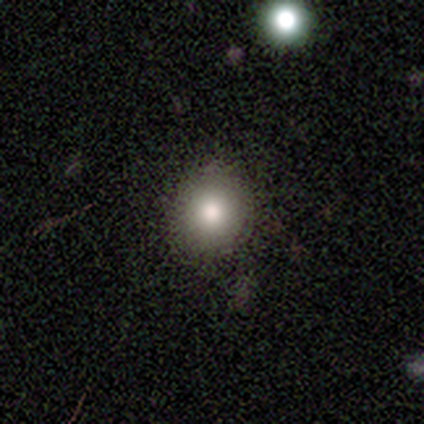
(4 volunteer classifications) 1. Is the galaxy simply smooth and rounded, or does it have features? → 100% smooth, 0% featured or disk, 0% star or artifact.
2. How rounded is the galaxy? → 100% round, 0% in between, 0% cigar-shaped.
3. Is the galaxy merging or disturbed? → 75% none, 25% minor disturbance, 0% major disturbance, 0% merger.